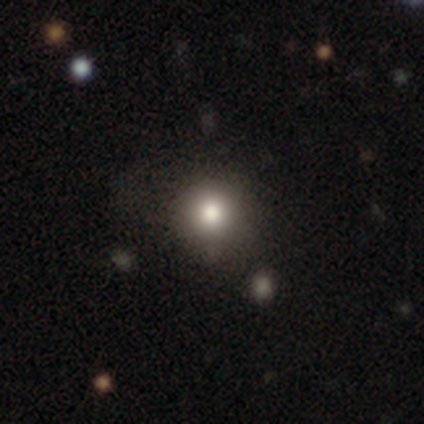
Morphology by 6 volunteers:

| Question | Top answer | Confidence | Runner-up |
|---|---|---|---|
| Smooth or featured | smooth | 67% | featured or disk (33%) |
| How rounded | round | 100% | — |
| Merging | none | 83% | major disturbance (17%) |